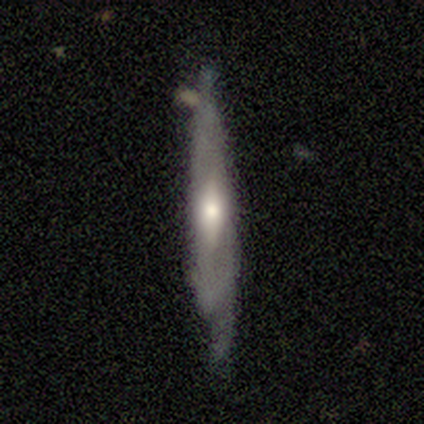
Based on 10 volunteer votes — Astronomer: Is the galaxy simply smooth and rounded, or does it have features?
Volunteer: featured or disk — 70%.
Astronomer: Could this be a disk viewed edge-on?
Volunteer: yes — 57% (runner-up: no, 43%).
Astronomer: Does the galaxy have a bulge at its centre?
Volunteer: none — 50%, tied with rounded at 50%.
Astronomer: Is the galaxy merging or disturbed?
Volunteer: minor disturbance — 56% (runner-up: none, 44%).